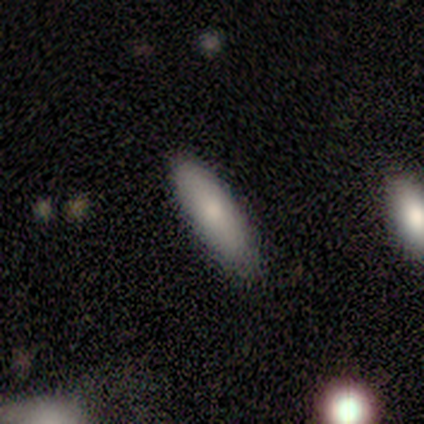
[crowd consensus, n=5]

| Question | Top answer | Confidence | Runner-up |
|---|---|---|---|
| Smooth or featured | smooth | 60% | featured or disk (20%) |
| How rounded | cigar-shaped | 67% | in between (33%) |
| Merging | none | 100% | — |